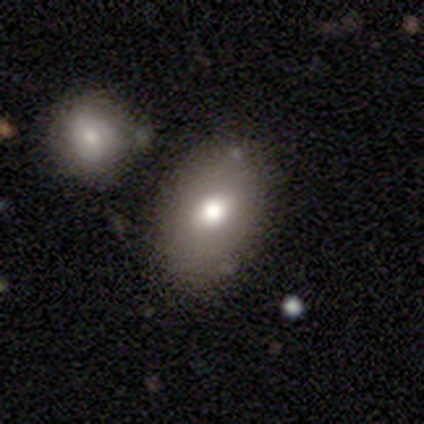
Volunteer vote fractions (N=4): A smooth galaxy with no disk features (75%) that is in between round and cigar-shaped (67%). Merging: none (100%).